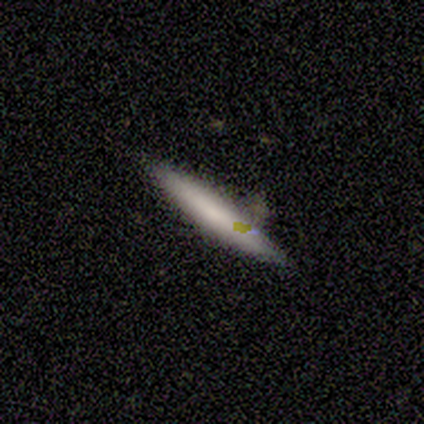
This is marginally a smooth galaxy (40%, tied with featured or disk). How rounded: possibly in between (50%, tied with cigar-shaped). Merging: likely none (75%).